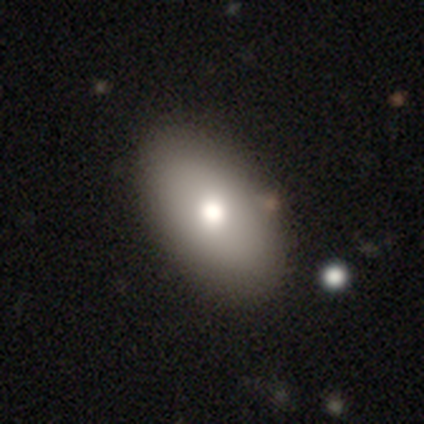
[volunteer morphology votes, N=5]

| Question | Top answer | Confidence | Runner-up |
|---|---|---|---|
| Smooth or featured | smooth | 80% | star or artifact (20%) |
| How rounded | in between | 100% | — |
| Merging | none | 75% | merger (25%) |